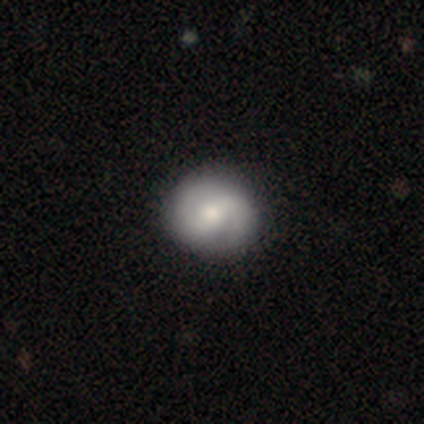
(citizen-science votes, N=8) Volunteers were most divided on "smooth or featured": featured or disk: 50%, smooth: 38%, star or artifact: 12%. More confident: spiral arms — yes (100%); spiral arm count — 2 (100%); bulge size — moderate (100%); merging — none (86%); edge-on disk — no (75%); bar — weak (67%); spiral winding — medium (67%).